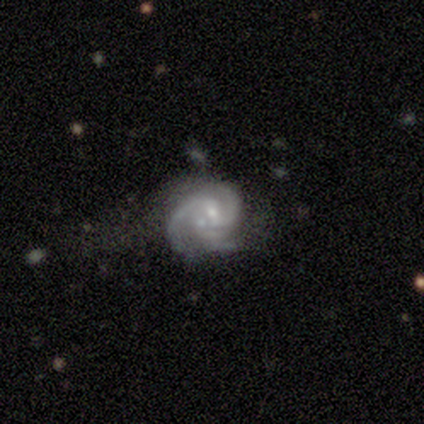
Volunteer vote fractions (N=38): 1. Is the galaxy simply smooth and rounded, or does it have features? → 89% featured or disk, 5% smooth, 5% star or artifact.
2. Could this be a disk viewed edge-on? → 97% no, 3% yes.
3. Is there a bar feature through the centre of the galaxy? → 55% weak, 39% no, 6% strong.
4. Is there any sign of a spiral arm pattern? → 94% yes, 6% no.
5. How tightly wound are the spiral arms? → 48% medium, 42% tight, 10% loose.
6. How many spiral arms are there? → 55% 3, 35% 2, 10% can't tell, 0% 1, 0% 4, 0% more than 4.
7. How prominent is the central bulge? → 67% small, 24% moderate, 6% none, 3% large, 0% dominant.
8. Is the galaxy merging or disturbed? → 39% none, 33% minor disturbance, 17% major disturbance, 11% merger.